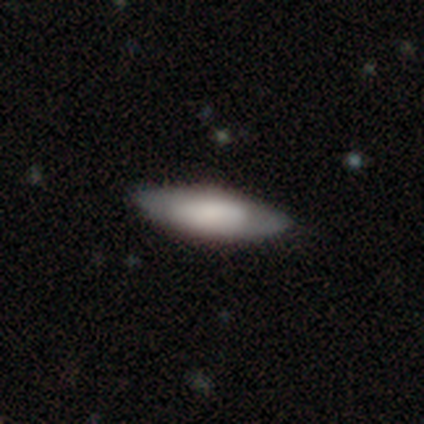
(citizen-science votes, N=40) Q: Smooth or featured?
A: smooth (65%); runner-up: featured or disk (32%)
Q: How rounded?
A: in between (50%); runner-up: cigar-shaped (46%)
Q: Merging?
A: none (79%); runner-up: minor disturbance (15%)